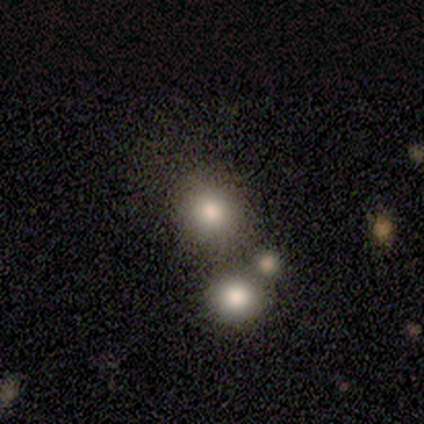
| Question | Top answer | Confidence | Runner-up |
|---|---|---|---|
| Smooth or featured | smooth | 100% | — |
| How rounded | in between | 75% | round (25%) |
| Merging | merger | 50% | none (25%) |